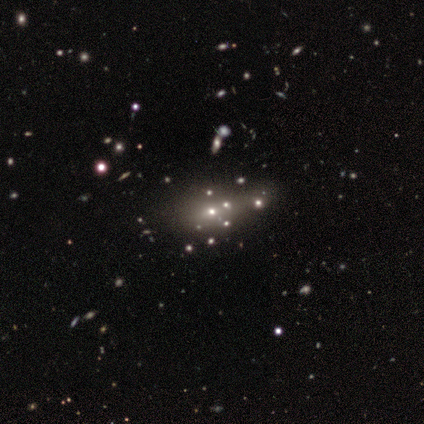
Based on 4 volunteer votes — smooth-or-featured: featured or disk: 50% (tied) | star or artifact: 50% (tied) | smooth: 0%
  disk-edge-on: no: 100% | yes: 0%
    bar: no: 100% | strong: 0% | weak: 0%
    has-spiral-arms: no: 100% | yes: 0%
    bulge-size: large: 50% (tied) | small: 50% (tied) | dominant: 0% | moderate: 0% | none: 0%
  merging: minor disturbance: 50% (tied) | merger: 50% (tied) | none: 0% | major disturbance: 0%